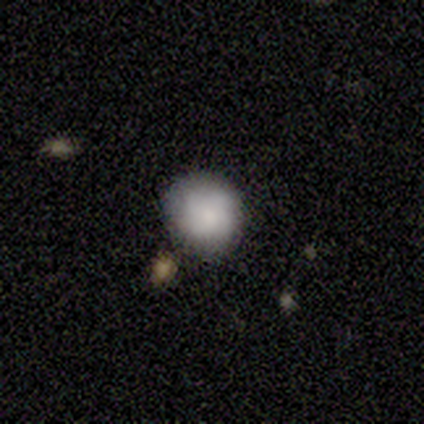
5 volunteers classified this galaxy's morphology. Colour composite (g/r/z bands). It shows a smooth galaxy with no disk features (100%) that is round (100%). Merging: none (80%).